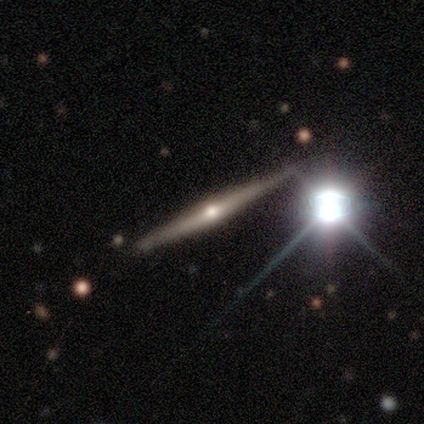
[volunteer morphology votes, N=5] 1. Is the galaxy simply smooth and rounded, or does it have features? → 100% featured or disk, 0% smooth, 0% star or artifact.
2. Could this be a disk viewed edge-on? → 100% yes, 0% no.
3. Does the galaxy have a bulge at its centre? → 80% rounded, 20% none, 0% boxy.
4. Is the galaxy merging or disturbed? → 100% none, 0% minor disturbance, 0% major disturbance, 0% merger.